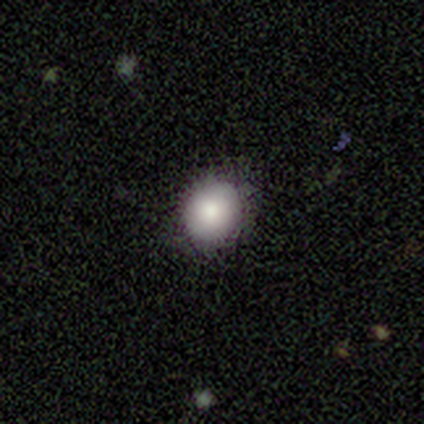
Overall: smooth (100%). How rounded: round (50%, tied with in between). Merging: none (100%).